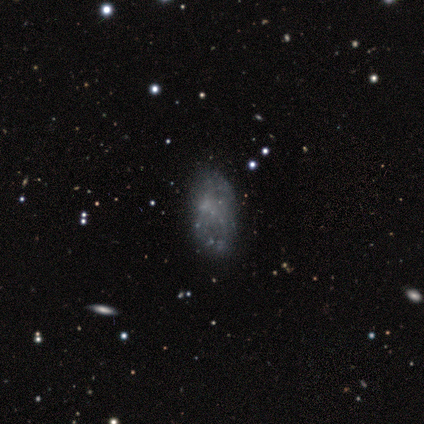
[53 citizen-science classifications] Volunteers were most divided on "smooth or featured": featured or disk: 58%, smooth: 21%, star or artifact: 21%. More confident: edge-on disk — no (100%); bar — no (100%); bulge size — none (94%); spiral arms — no (87%); merging — none (69%).